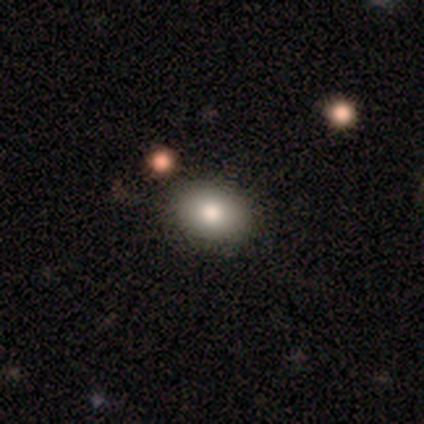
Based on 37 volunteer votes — smooth_or_featured: smooth (p=0.92) [alt: featured or disk p=0.05]
how_rounded: in between (p=0.65) [alt: round p=0.35]
merging: none (p=0.83) [alt: minor disturbance p=0.06]